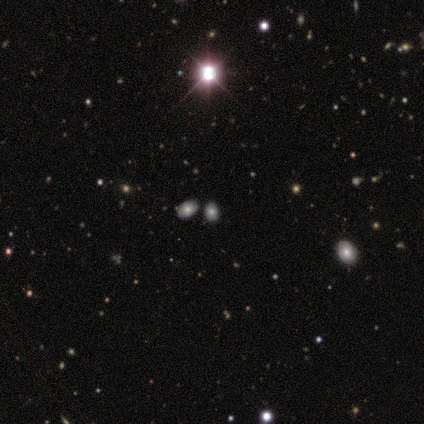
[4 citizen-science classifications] smooth_or_featured: smooth (p=0.75) [alt: star or artifact p=0.25]
how_rounded: in between (p=1.00)
merging: merger (p=0.67) [alt: none p=0.33]